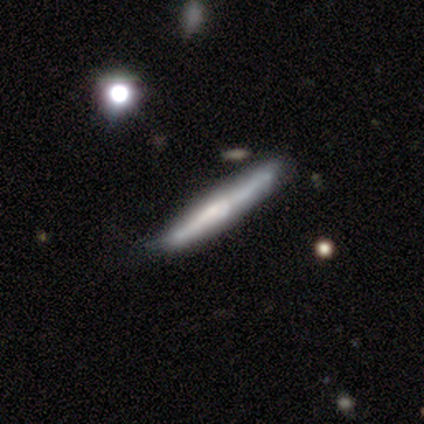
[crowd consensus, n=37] A featured or disk galaxy (59%) viewed edge-on (91%) with no central bulge (45%).

Vote fractions:
- Smooth or featured? featured or disk: 59% / smooth: 32% / star or artifact: 8%
- Edge-on disk? yes: 91% / no: 9%
- Edge-on bulge? none: 45% / rounded: 40% / boxy: 15%
- Merging? none: 85% / minor disturbance: 9% / merger: 6% / major disturbance: 0%